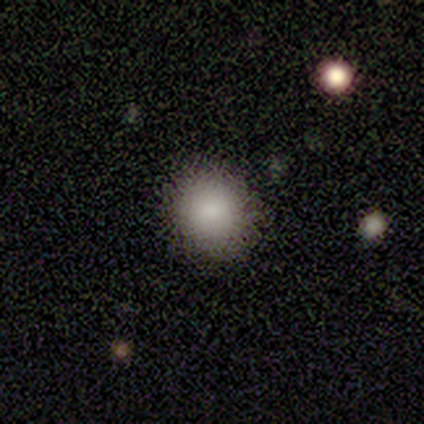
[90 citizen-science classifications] Overall: smooth (83%). How rounded: round (87%). Merging: none (84%).